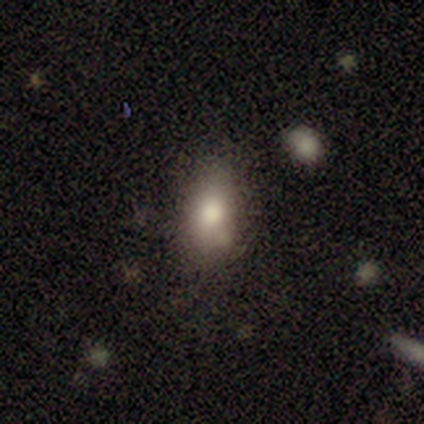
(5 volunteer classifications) Overall: smooth (100%). How rounded: in between (80%). Merging: none (60%; minor disturbance 20%).